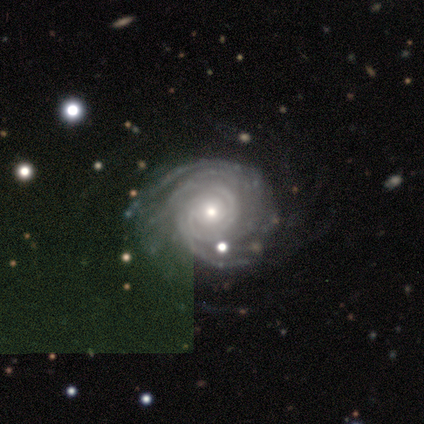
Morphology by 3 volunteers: Smooth or featured? featured or disk (100%)
Edge-on disk? no (100%)
Bar? no (100%)
Spiral arms? yes (100%)
Spiral winding? tight (67%)
Spiral arm count? 3 (67%)
Bulge size? small (67%)
Merging? none (67%)